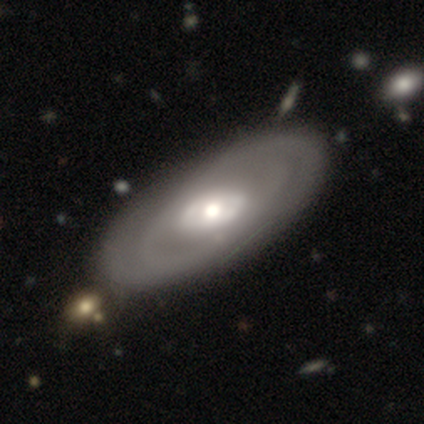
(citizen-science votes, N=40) Volunteers were most divided on "spiral winding": tight: 50%, medium: 43%, loose: 7%. Remaining: edge-on disk — no (87%); smooth or featured — featured or disk (75%); bar — no (65%); bulge size — moderate (58%); spiral arms — yes (54%); spiral arm count — can't tell (50%); merging — none (44%).